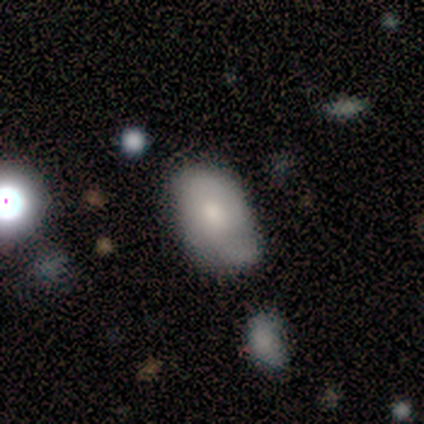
Morphology: type=smooth (80%); roundness=in between (75%); merging=none (60%).